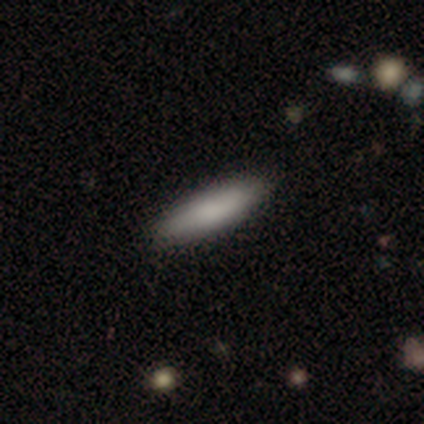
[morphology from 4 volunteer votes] Q: Smooth or featured?
A: smooth (100%)
Q: How rounded?
A: in between (50%); tied with: cigar-shaped (50%)
Q: Merging?
A: none (100%)